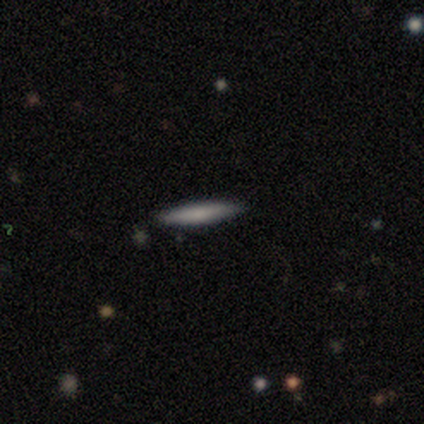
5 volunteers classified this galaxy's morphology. Overall: smooth (80%). How rounded: cigar-shaped (100%). Merging: none (100%).